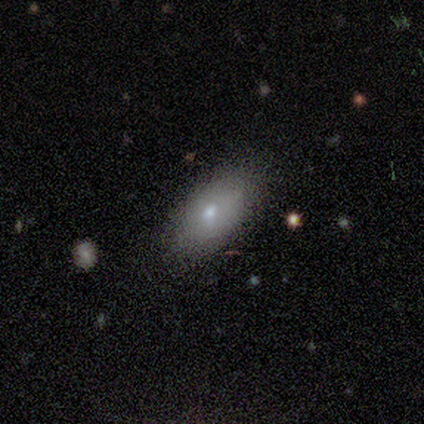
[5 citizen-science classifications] Overall: featured or disk (60%; smooth 20%). Edge-on disk: no (100%). Bar: no (100%). Spiral arms: no (100%). Bulge size: moderate (33%, tied with small and none). Merging: none (75%).